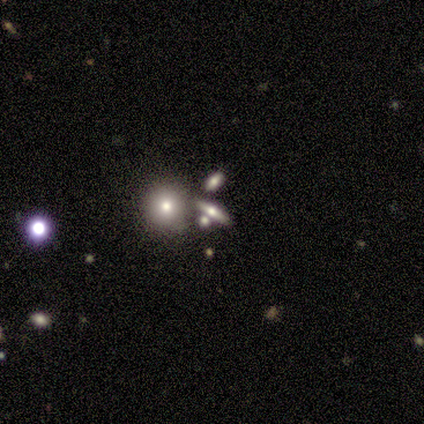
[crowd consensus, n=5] Overall: smooth (60%; featured or disk 20%). How rounded: round (33%, tied with in between and cigar-shaped). Merging: none (50%; minor disturbance 25%).